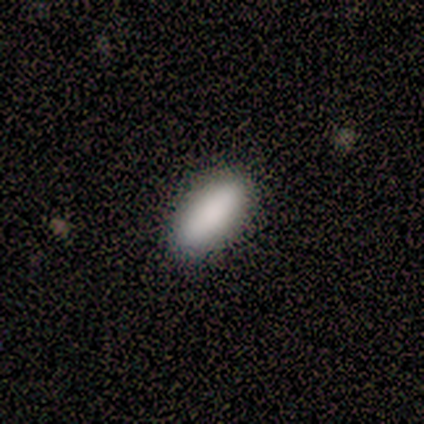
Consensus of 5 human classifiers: A smooth galaxy with no disk features (80%) that is in between round and cigar-shaped (75%). Merging: none (50%).